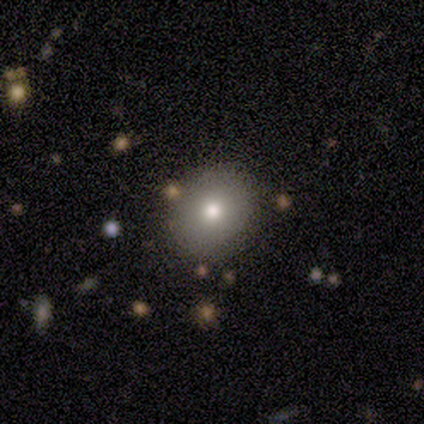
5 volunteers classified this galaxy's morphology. smooth-or-featured: smooth: 60% | featured or disk: 20% | star or artifact: 20%
  how-rounded: round: 100% | in between: 0% | cigar-shaped: 0%
  merging: none: 100% | minor disturbance: 0% | major disturbance: 0% | merger: 0%